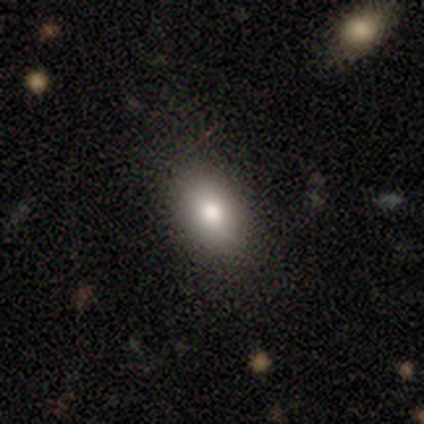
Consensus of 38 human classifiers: Volunteers were most divided on "merging": none: 77%, minor disturbance: 17%, major disturbance: 6%, merger: 0%. More confident: how rounded — in between (97%); smooth or featured — smooth (76%).